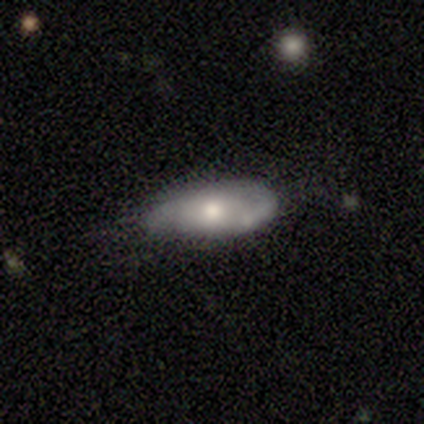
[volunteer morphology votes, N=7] This appears to be a featured or disk galaxy (57%) with no bar (75%), 2 (50%) medium (50%, tied with loose) spiral arms (100%) and a moderate central bulge (100%). Merging: none (67%).